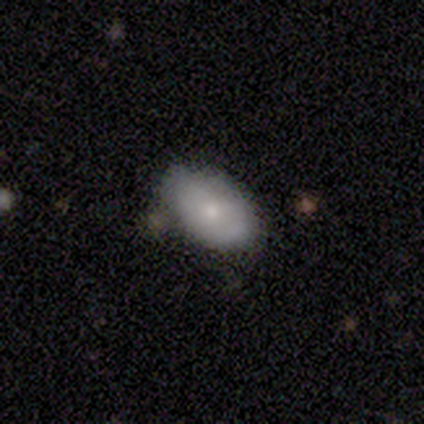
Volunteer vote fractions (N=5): smooth-or-featured: featured or disk: 60% | smooth: 40% | star or artifact: 0%
  disk-edge-on: no: 67% | yes: 33%
    bar: weak: 50% (tied) | no: 50% (tied) | strong: 0%
    has-spiral-arms: no: 100% | yes: 0%
    bulge-size: moderate: 50% (tied) | small: 50% (tied) | dominant: 0% | large: 0% | none: 0%
  merging: none: 60% | minor disturbance: 40% | major disturbance: 0% | merger: 0%